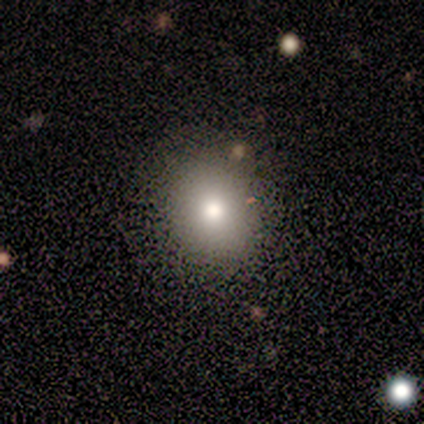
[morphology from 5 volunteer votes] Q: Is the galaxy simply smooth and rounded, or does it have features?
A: smooth — 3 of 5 (60%).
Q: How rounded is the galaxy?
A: round — 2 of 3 (67%).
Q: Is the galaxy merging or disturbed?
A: none — 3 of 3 (100%).